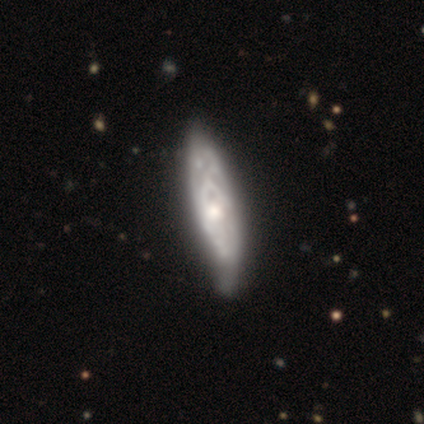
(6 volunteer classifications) smooth_or_featured: featured or disk (p=0.67) [alt: smooth p=0.17]
disk_edge_on: no (p=0.75) [alt: yes p=0.25]
bar: no (p=0.67) [alt: weak p=0.33]
has_spiral_arms: yes (p=0.67) [alt: no p=0.33]
spiral_winding: tight (p=0.50) [tied with: medium p=0.50]
spiral_arm_count: 3 (p=1.00)
bulge_size: small (p=0.67) [alt: moderate p=0.33]
merging: none (p=0.60) [alt: minor disturbance p=0.40]